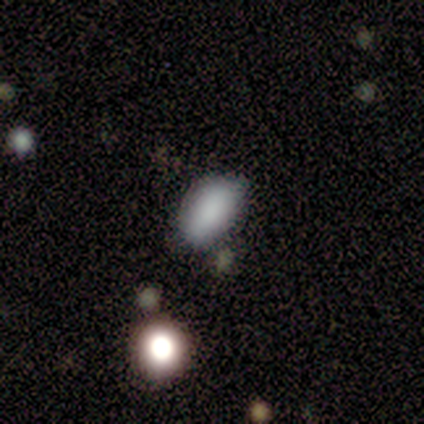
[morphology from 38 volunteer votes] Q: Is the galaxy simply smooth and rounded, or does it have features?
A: smooth — 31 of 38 (82%).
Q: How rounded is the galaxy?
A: in between — 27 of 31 (87%).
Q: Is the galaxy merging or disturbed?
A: none — 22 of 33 (67%).